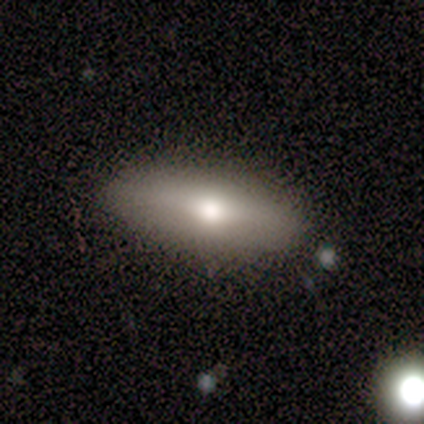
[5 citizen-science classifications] This appears to be a smooth galaxy with no disk features (80%) that is in between round and cigar-shaped (50%, tied with cigar-shaped). Merging: none (60%).